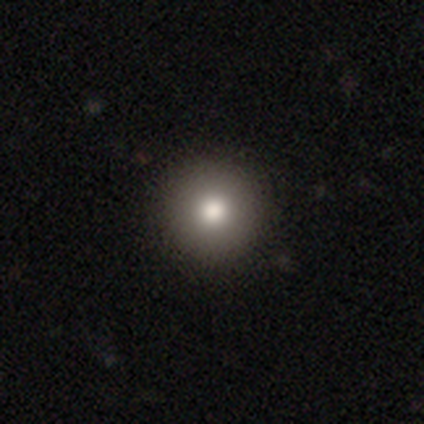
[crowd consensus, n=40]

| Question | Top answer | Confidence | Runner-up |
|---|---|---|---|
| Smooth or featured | smooth | 70% | featured or disk (18%) |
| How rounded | round | 96% | in between (4%) |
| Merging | none | 69% | major disturbance (3%) |